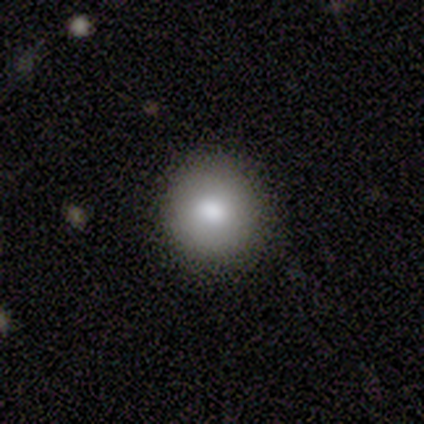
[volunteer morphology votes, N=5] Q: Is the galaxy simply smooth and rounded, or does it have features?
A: smooth — 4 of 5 (80%).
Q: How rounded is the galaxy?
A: round — 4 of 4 (100%).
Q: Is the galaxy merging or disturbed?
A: none — 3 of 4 (75%).